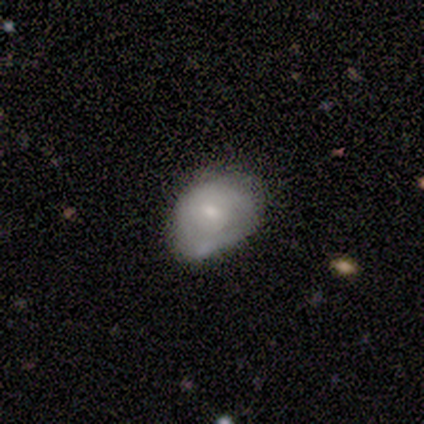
A smooth galaxy with no disk features (80%) that is in between round and cigar-shaped (100%).

Vote fractions:
- Smooth or featured? smooth: 80% / featured or disk: 20% / star or artifact: 0%
- How rounded? in between: 100% / round: 0% / cigar-shaped: 0%
- Merging? none: 40% (tied) / merger: 40% (tied) / major disturbance: 20% / minor disturbance: 0%